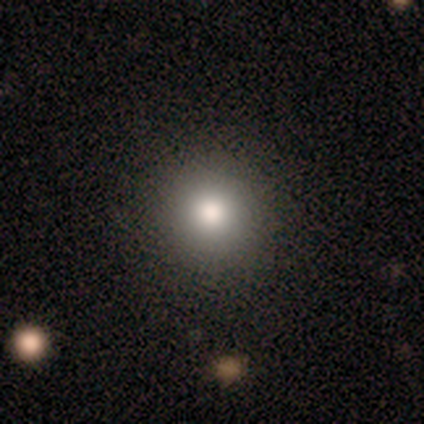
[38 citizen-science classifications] Overall: smooth (82%). How rounded: round (94%). Merging: none (92%).